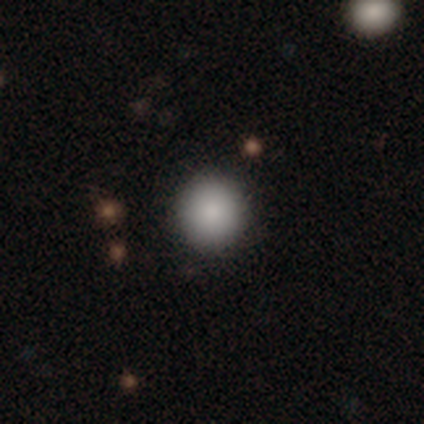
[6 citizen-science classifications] smooth 50% (tied), star or artifact 50% (tied), featured or disk 0%. Down the decision tree: how rounded — round (100%); merging — none (67%).